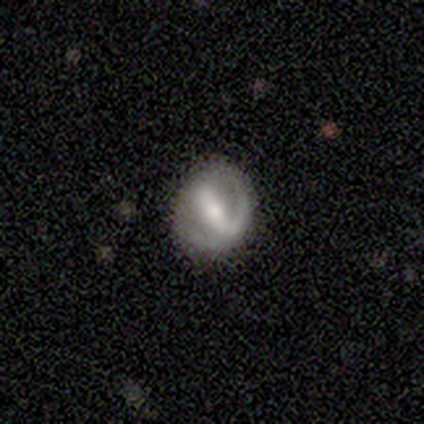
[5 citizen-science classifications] Smooth or featured: featured or disk — 60% (smooth — 20%)
Edge-on disk: no — 100%
Bar: strong — 67% (weak — 33%)
Spiral arms: no — 67% (yes — 33%)
Bulge size: moderate — 67% (dominant — 33%)
Merging: none — 100%